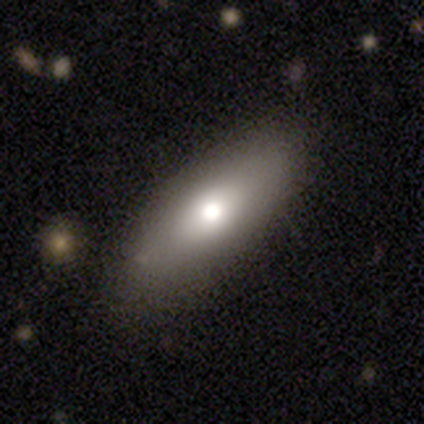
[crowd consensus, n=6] Morphology: type=smooth (50%, tied with featured or disk); roundness=in between (100%); merging=none (83%).